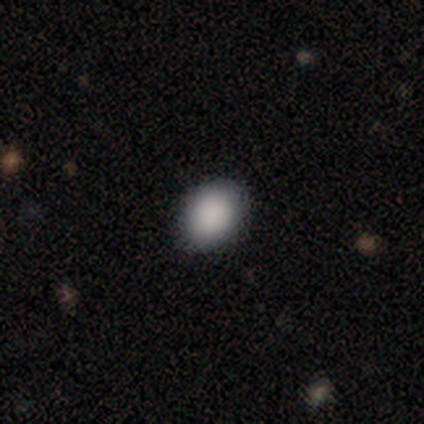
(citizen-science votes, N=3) This is clearly a smooth galaxy (100%). How rounded: likely in between (67%). Merging: clearly none (100%).